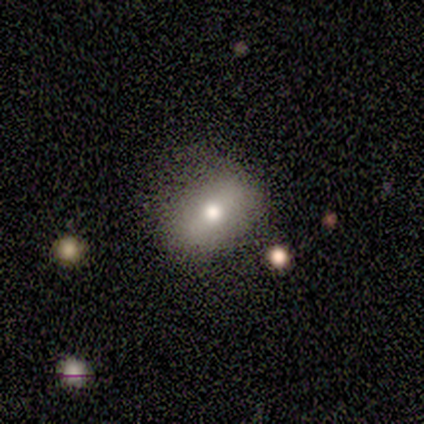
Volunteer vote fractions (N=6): Smooth or featured? 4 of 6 (67%) said smooth. How rounded? 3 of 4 (75%) said in between. Merging? 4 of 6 (67%) said none.